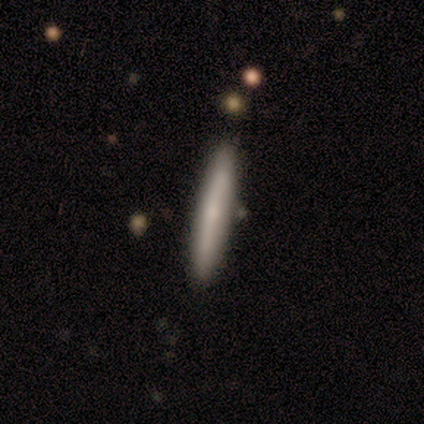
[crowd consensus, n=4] smooth_or_featured: smooth (p=0.50) [tied with: featured or disk p=0.50]
how_rounded: cigar-shaped (p=1.00)
merging: none (p=1.00)